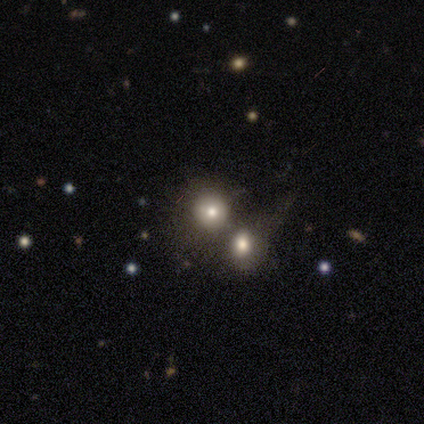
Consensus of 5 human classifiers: Smooth or featured?
  - smooth: 40% * (tied)
  - star or artifact: 40% * (tied)
  - featured or disk: 20%
How rounded?
  - round: 100% *
  - in between: 0%
  - cigar-shaped: 0%
Merging?
  - merger: 67% *
  - minor disturbance: 33%
  - none: 0%
  - major disturbance: 0%